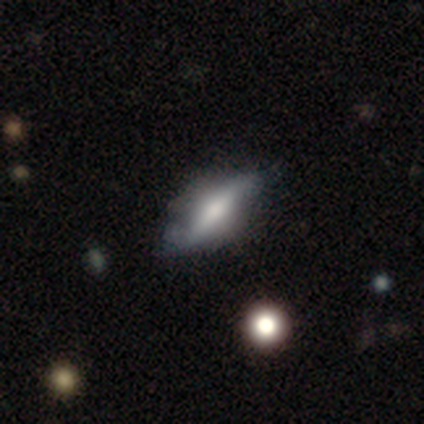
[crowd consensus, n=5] Smooth or featured?
  - featured or disk: 60% *
  - smooth: 40%
  - star or artifact: 0%
Edge-on disk?
  - yes: 100% *
  - no: 0%
Edge-on bulge?
  - rounded: 67% *
  - boxy: 33%
  - none: 0%
Merging?
  - none: 60% *
  - minor disturbance: 40%
  - major disturbance: 0%
  - merger: 0%